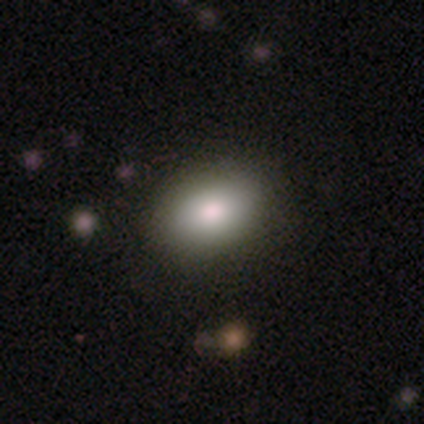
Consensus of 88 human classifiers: Smooth or featured?
  - smooth: 86% *
  - featured or disk: 7%
  - star or artifact: 7%
How rounded?
  - in between: 87% *
  - round: 13%
  - cigar-shaped: 0%
Merging?
  - none: 89% *
  - minor disturbance: 11%
  - major disturbance: 0%
  - merger: 0%